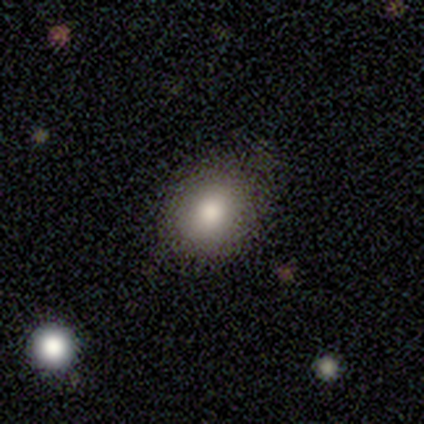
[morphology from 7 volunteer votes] Q: Smooth or featured?
A: smooth (86%); runner-up: featured or disk (14%)
Q: How rounded?
A: in between (83%); runner-up: round (17%)
Q: Merging?
A: none (86%); runner-up: minor disturbance (14%)